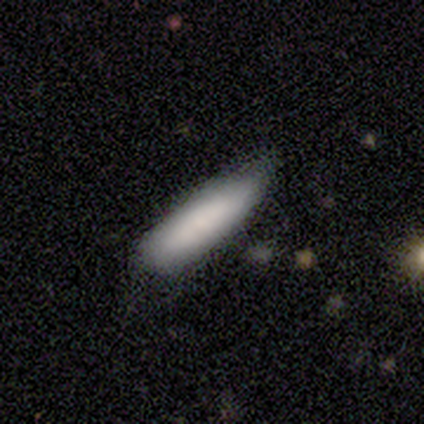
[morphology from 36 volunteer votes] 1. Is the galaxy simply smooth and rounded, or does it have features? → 86% smooth, 14% featured or disk, 0% star or artifact.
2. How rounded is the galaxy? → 71% cigar-shaped, 29% in between, 0% round.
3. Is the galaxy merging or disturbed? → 56% none, 36% minor disturbance, 6% major disturbance, 3% merger.